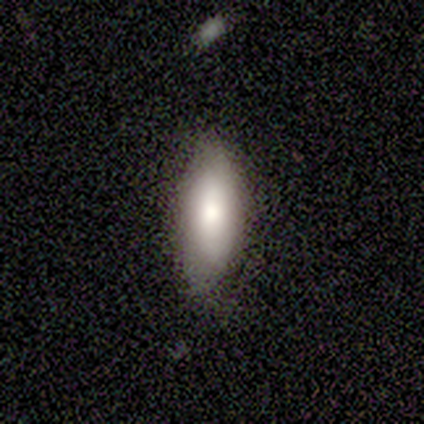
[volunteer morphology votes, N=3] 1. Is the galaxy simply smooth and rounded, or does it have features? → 67% smooth, 33% star or artifact, 0% featured or disk.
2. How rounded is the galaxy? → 100% in between, 0% round, 0% cigar-shaped.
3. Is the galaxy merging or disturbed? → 100% none, 0% minor disturbance, 0% major disturbance, 0% merger.